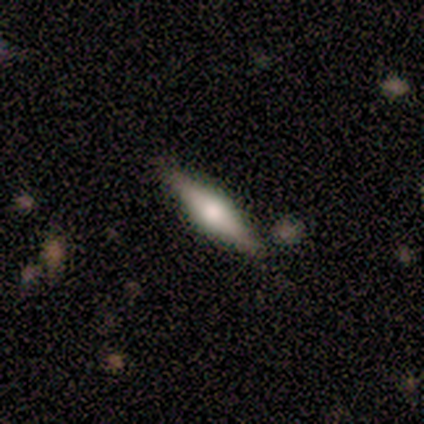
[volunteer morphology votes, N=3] Volunteers were most divided on "smooth or featured": featured or disk: 67%, smooth: 33%, star or artifact: 0%. More confident: edge-on disk — yes (100%); edge-on bulge — rounded (100%); merging — none (100%).